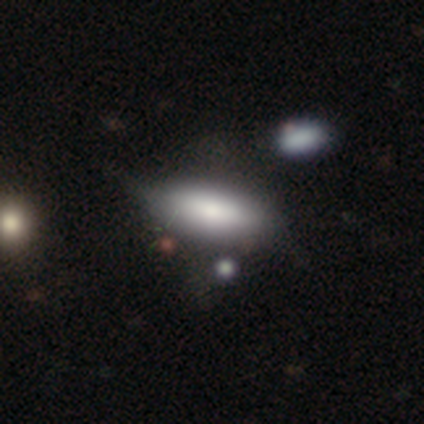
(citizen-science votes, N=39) smooth-or-featured: smooth: 82% | featured or disk: 13% | star or artifact: 5%
  how-rounded: in between: 88% | cigar-shaped: 12% | round: 0%
  merging: minor disturbance: 30% | none: 19% | merger: 16% | major disturbance: 14%